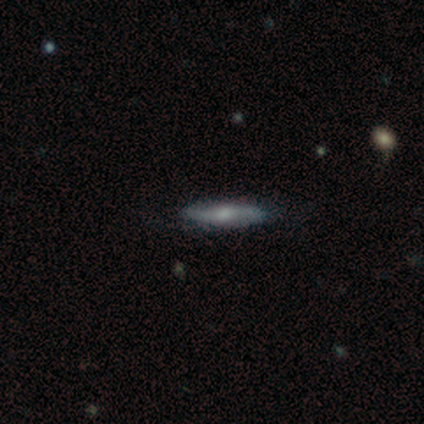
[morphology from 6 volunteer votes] smooth-or-featured: featured or disk: 100% | smooth: 0% | star or artifact: 0%
  disk-edge-on: no: 83% | yes: 17%
    bar: no: 60% | weak: 40% | strong: 0%
    has-spiral-arms: yes: 100% | no: 0%
      spiral-winding: medium: 40% (tied) | loose: 40% (tied) | tight: 20%
      spiral-arm-count: 2: 100% | 1: 0% | 3: 0% | 4: 0% | more than 4: 0% | can't tell: 0%
    bulge-size: moderate: 60% | dominant: 20% | small: 20% | large: 0% | none: 0%
  merging: none: 83% | minor disturbance: 17% | major disturbance: 0% | merger: 0%